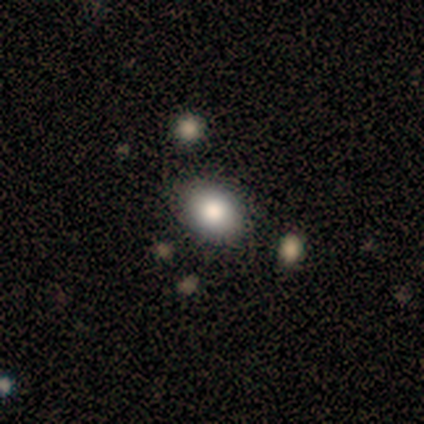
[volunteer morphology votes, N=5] Q: Smooth or featured?
A: smooth (80%); runner-up: star or artifact (20%)
Q: How rounded?
A: in between (75%); runner-up: round (25%)
Q: Merging?
A: none (50%); tied with: minor disturbance (50%)